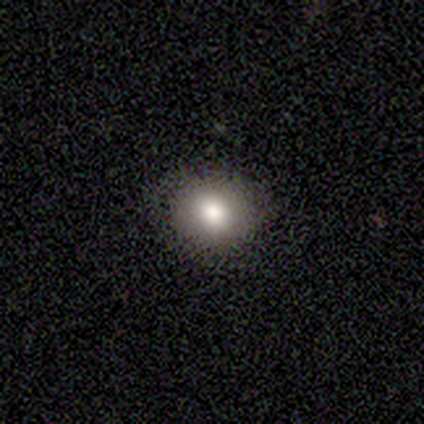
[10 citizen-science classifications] Volunteers were most divided on "smooth or featured": smooth: 90%, featured or disk: 10%, star or artifact: 0%. More confident: how rounded — round (100%); merging — none (90%).